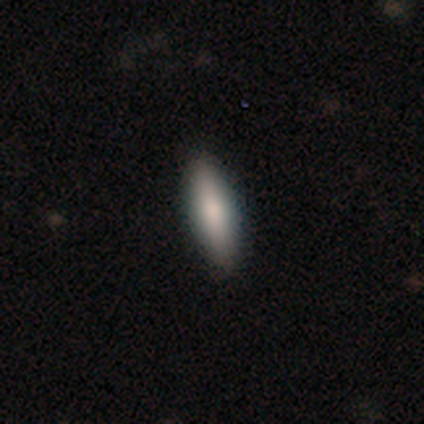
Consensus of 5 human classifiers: smooth_or_featured: smooth (p=0.60) [alt: featured or disk p=0.40]
how_rounded: in between (p=0.67) [alt: cigar-shaped p=0.33]
merging: none (p=0.80) [alt: minor disturbance p=0.20]